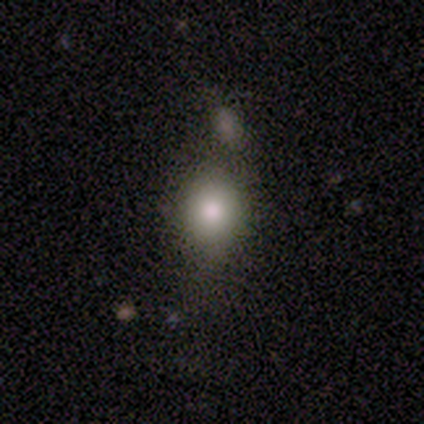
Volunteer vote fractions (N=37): Q: Smooth or featured?
A: smooth (92%); runner-up: star or artifact (5%)
Q: How rounded?
A: in between (56%); runner-up: round (41%)
Q: Merging?
A: none (57%); runner-up: minor disturbance (14%)